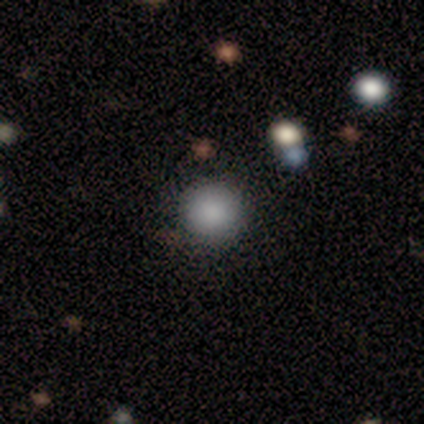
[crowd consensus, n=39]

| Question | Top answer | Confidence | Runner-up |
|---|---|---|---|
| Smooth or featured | smooth | 92% | featured or disk (5%) |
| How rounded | round | 97% | in between (3%) |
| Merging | none | 76% | minor disturbance (21%) |